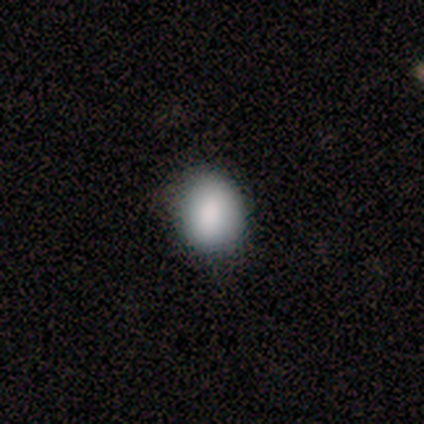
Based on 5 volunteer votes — smooth_or_featured: smooth (p=0.80) [alt: star or artifact p=0.20]
how_rounded: round (p=0.75) [alt: in between p=0.25]
merging: none (p=1.00)